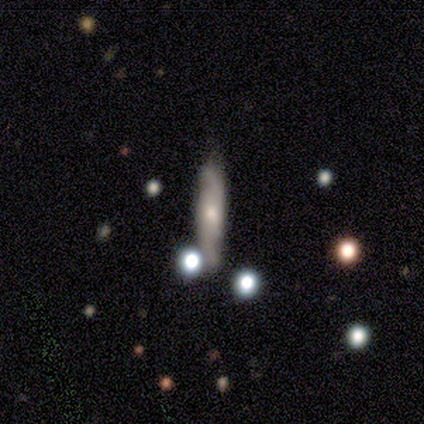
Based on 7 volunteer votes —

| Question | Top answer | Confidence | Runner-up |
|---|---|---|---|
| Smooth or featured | featured or disk | 71% | smooth (29%) |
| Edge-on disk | no | 100% | — |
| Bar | no | 60% | strong (20%) |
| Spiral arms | yes | 80% | no (20%) |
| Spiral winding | medium | 50% | tied: loose (50%) |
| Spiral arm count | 2 | 75% | can't tell (25%) |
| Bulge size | moderate | 60% | small (40%) |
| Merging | none | 86% | merger (14%) |